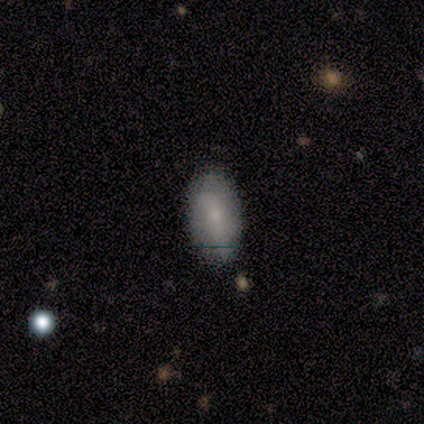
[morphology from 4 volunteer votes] Volunteers were most divided on "smooth or featured": smooth: 75%, featured or disk: 25%, star or artifact: 0%. More confident: how rounded — in between (100%); merging — none (75%).